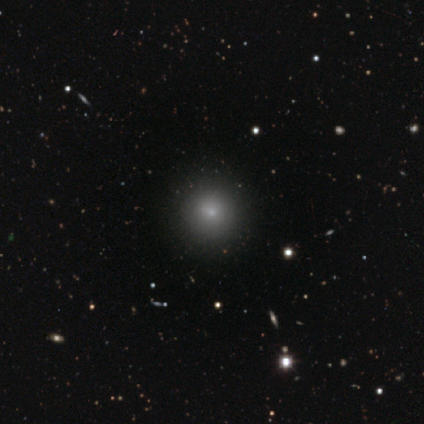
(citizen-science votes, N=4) smooth-or-featured: smooth: 75% | star or artifact: 25% | featured or disk: 0%
  how-rounded: round: 100% | in between: 0% | cigar-shaped: 0%
  merging: none: 67% | major disturbance: 33% | minor disturbance: 0% | merger: 0%